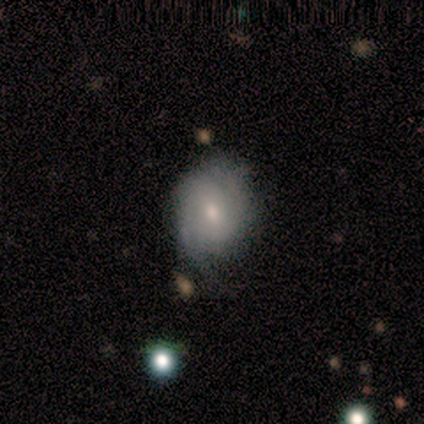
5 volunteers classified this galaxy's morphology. Smooth or featured? 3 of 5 (60%) said featured or disk. Edge-on disk? 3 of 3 (100%) said no. Bar? 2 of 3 (67%) said no. Spiral arms? 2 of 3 (67%) said no. Bulge size? 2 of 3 (67%) said small. Merging? 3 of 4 (75%) said none.